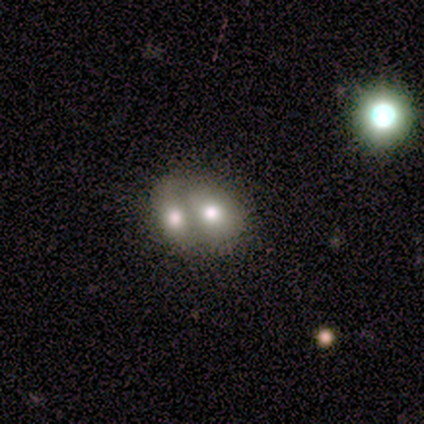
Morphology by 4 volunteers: Smooth or featured? smooth (50%, tied with featured or disk)
How rounded? round (50%, tied with in between)
Merging? merger (100%)